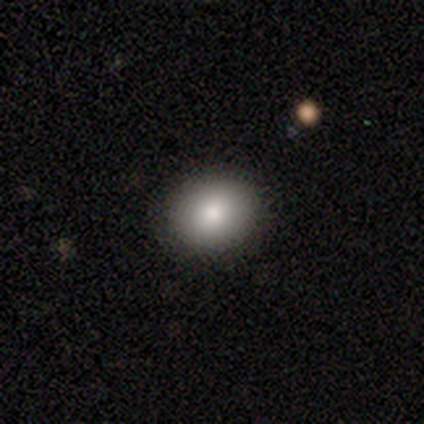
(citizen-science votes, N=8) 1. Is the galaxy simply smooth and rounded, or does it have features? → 100% smooth, 0% featured or disk, 0% star or artifact.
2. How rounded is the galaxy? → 50% round, 38% in between, 12% cigar-shaped.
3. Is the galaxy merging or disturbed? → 62% none, 38% minor disturbance, 0% major disturbance, 0% merger.